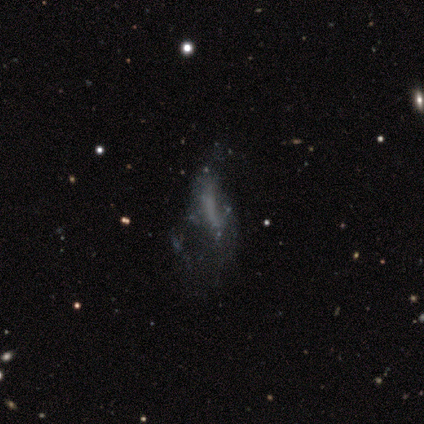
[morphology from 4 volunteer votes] This is likely a featured or disk galaxy (75%). It is clearly not viewed edge-on (100%). Bar: likely no (67%). Spiral arm pattern: clearly no (100%). Central bulge: clearly none (100%). Merging: likely major disturbance (75%).